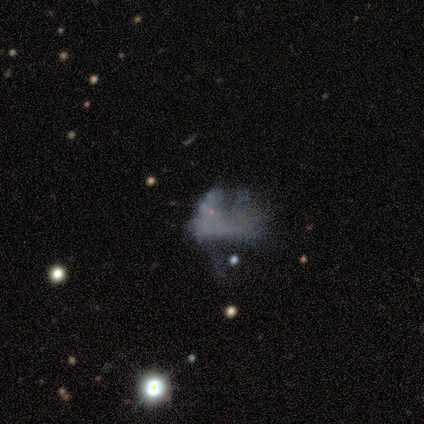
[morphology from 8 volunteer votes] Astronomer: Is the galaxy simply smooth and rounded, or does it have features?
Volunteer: featured or disk — 50%.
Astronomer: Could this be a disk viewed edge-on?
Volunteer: no — 100%.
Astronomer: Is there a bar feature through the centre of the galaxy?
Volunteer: no — 100%.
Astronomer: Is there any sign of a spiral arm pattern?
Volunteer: no — 100%.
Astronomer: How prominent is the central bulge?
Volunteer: none — 100%.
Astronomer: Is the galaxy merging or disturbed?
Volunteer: none — 50%, tied with major disturbance at 50%.